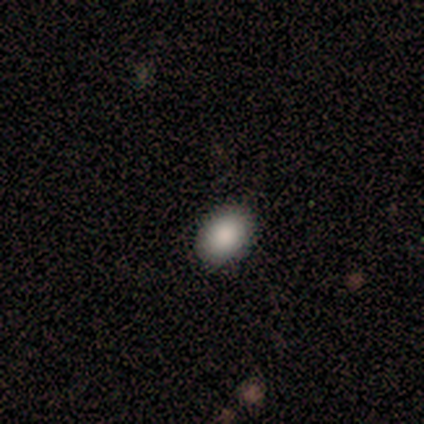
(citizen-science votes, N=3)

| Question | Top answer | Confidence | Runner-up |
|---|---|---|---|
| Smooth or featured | smooth | 100% | — |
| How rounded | in between | 67% | round (33%) |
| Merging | none | 67% | merger (33%) |